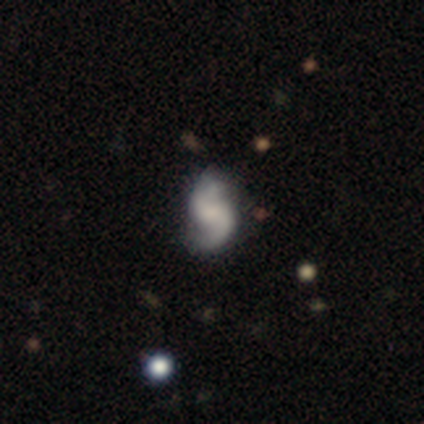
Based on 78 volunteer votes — Smooth or featured? featured or disk (90%)
Edge-on disk? no (97%)
Bar? no (49%)
Spiral arms? yes (99%)
Spiral winding? loose (63%)
Spiral arm count? 2 (97%)
Bulge size? none (46%)
Merging? none (75%)